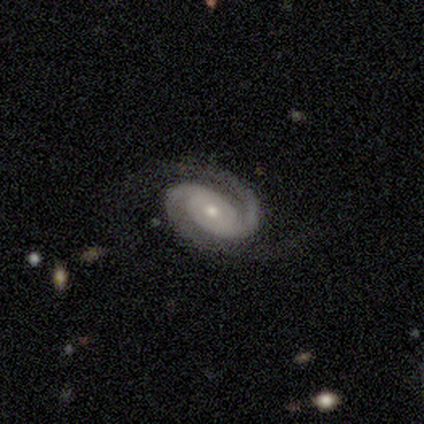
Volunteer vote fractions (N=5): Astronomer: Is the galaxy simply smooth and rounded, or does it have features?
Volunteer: featured or disk — 100%.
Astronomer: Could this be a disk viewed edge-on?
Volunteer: no — 100%.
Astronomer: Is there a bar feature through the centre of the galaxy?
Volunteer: no — 80%.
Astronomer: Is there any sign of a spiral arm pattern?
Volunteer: yes — 100%.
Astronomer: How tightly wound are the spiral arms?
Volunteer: tight — 80%.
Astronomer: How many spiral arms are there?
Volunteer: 2 — 100%.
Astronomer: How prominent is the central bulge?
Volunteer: small — 80%.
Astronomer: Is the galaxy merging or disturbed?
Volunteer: none — 80%.